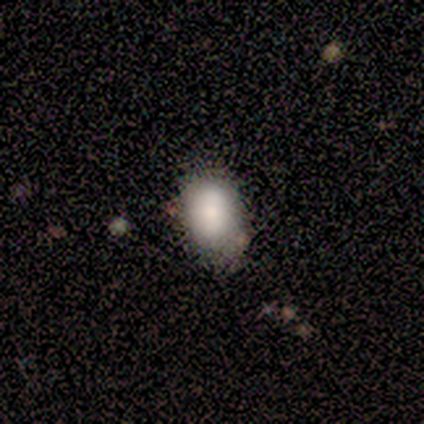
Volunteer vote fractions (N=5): Morphology: type=smooth (40%, tied with featured or disk); roundness=in between (100%); merging=none (100%).